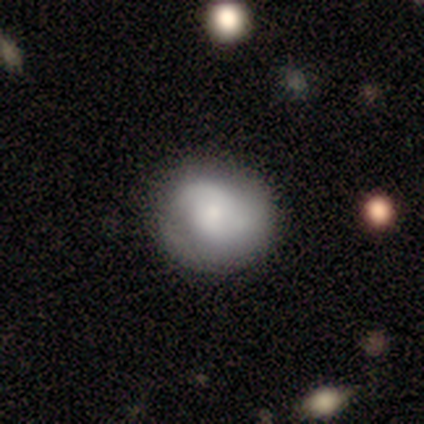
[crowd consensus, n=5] Smooth or featured: smooth — 60% (featured or disk — 40%)
How rounded: round — 100%
Merging: none — 80% (minor disturbance — 20%)